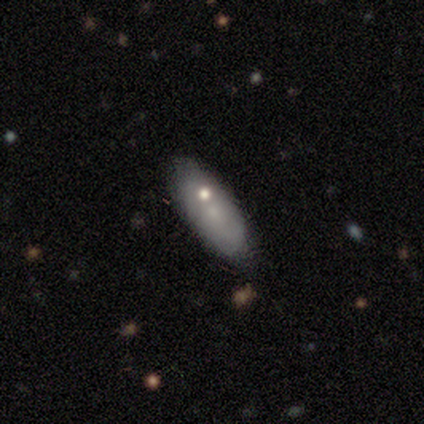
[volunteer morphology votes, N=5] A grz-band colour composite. It shows a featured or disk galaxy (60%) with no bar (100%), no spiral arms (100%) and a small central bulge (67%). Merging: none (40%, tied with merger).